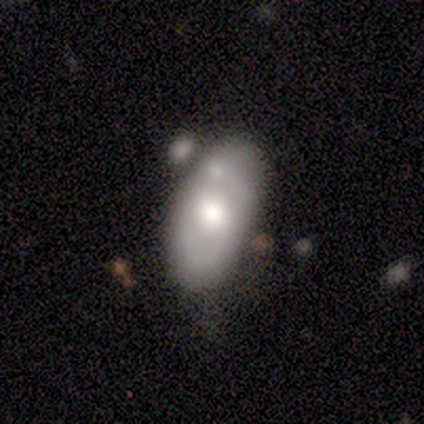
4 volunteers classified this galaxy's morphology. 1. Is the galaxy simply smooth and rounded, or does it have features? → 50% smooth (tied), 50% featured or disk (tied), 0% star or artifact.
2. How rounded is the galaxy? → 100% in between, 0% round, 0% cigar-shaped.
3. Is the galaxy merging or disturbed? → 100% merger, 0% none, 0% minor disturbance, 0% major disturbance.